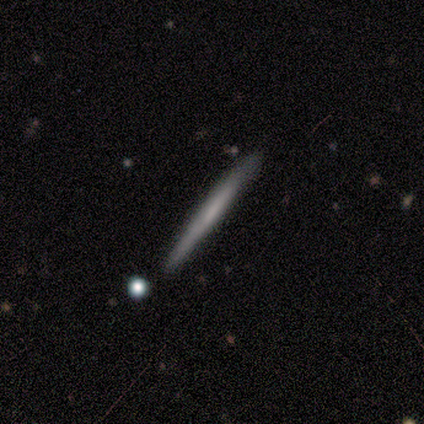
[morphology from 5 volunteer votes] Smooth or featured?
  - smooth: 100% *
  - featured or disk: 0%
  - star or artifact: 0%
How rounded?
  - cigar-shaped: 80% *
  - in between: 20%
  - round: 0%
Merging?
  - none: 80% *
  - major disturbance: 20%
  - minor disturbance: 0%
  - merger: 0%